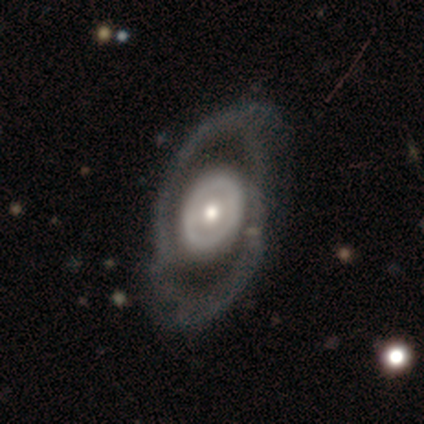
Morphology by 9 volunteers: This is likely a featured or disk galaxy (67%). It is clearly not viewed edge-on (100%). Bar: likely no (67%). Spiral arm pattern: likely no (67%). Central bulge: clearly moderate (100%). Merging: clearly none (89%).